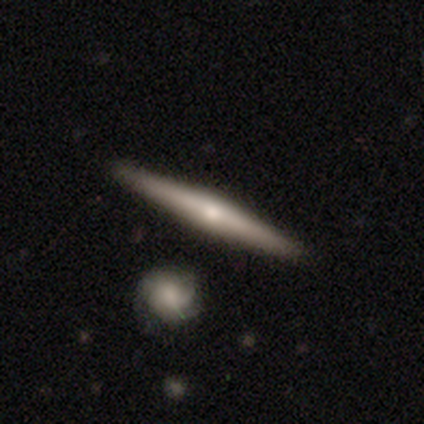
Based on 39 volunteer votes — A featured or disk galaxy (67%) viewed edge-on (96%) with a rounded central bulge (80%). Merging: none (76%).